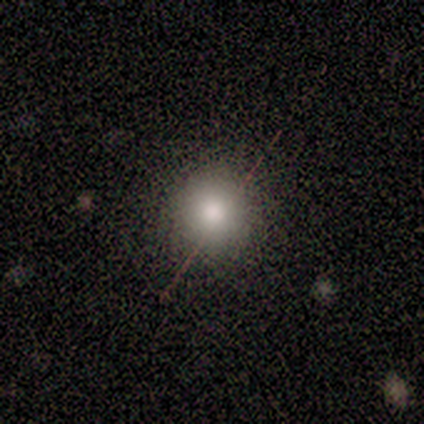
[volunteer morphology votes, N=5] A smooth galaxy with no disk features (40%, tied with featured or disk) that is round (100%). Merging: none (100%).